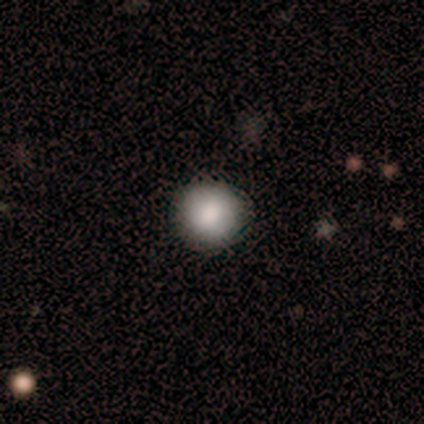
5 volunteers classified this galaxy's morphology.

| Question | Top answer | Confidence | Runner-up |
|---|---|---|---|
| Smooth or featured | smooth | 80% | featured or disk (20%) |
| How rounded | round | 100% | — |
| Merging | none | 100% | — |